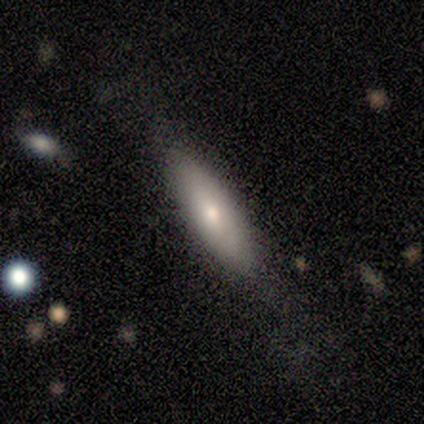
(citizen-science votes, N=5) smooth 80%, featured or disk 20%, star or artifact 0%. Down the decision tree: how rounded — cigar-shaped (75%); merging — none (100%).